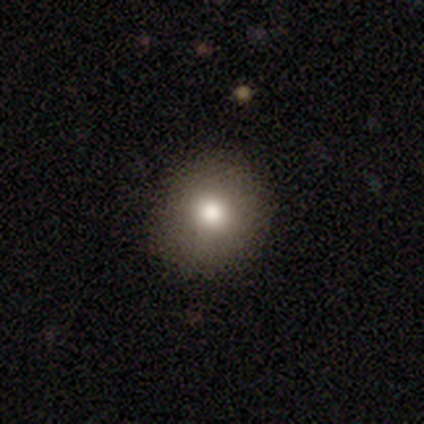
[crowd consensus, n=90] Volunteers were most divided on "smooth or featured": smooth: 87%, featured or disk: 9%, star or artifact: 4%. More confident: how rounded — round (96%); merging — none (92%).